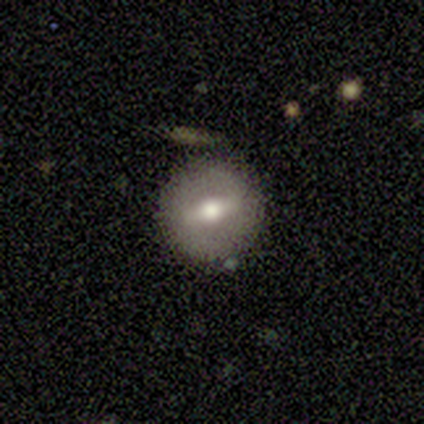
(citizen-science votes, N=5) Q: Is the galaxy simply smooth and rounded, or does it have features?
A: featured or disk — 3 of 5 (60%).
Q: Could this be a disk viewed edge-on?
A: no — 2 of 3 (67%).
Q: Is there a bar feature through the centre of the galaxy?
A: strong — 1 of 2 (50%, tied with weak).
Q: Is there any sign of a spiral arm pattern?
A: no — 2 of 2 (100%).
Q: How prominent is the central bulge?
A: large — 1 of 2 (50%, tied with small).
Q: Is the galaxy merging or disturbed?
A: none — 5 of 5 (100%).